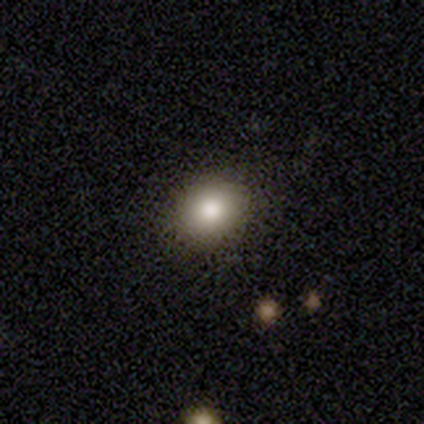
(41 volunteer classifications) This is likely a smooth galaxy (78%). How rounded: likely round (69%). Merging: clearly none (89%).